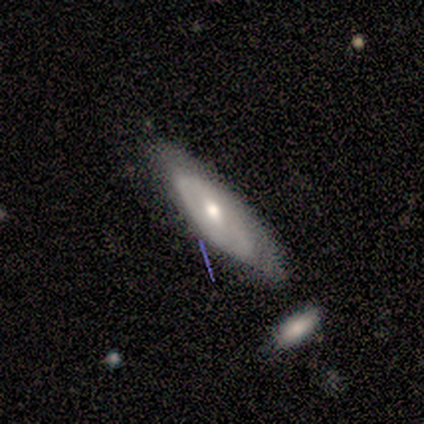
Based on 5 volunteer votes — Overall: featured or disk (60%; smooth 40%). Edge-on disk: no (100%). Bar: no (67%; weak 33%). Spiral arms: yes (67%; no 33%). Spiral arm count: 2 (50%, tied with can't tell). Spiral winding: tight (100%). Bulge size: moderate (100%). Merging: none (80%).